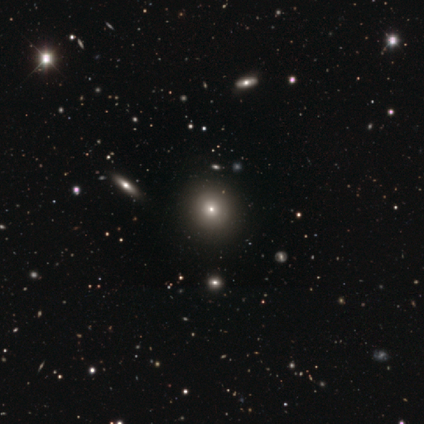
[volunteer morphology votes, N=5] This appears to be a smooth galaxy with no disk features (60%) that is round (100%). Merging: none (67%).